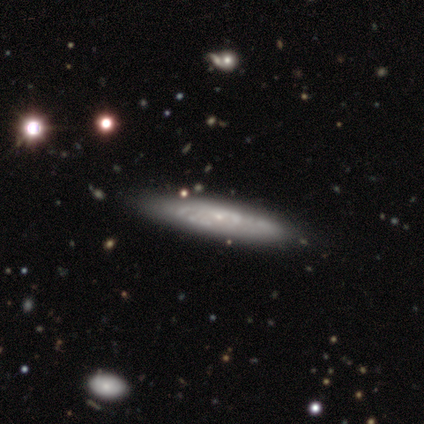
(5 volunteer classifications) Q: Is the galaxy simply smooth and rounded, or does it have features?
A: featured or disk — 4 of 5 (80%).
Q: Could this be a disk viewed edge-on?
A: yes — 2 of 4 (50%, tied with no).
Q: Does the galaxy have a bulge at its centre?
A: rounded — 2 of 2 (100%).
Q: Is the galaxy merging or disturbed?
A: minor disturbance — 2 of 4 (50%).